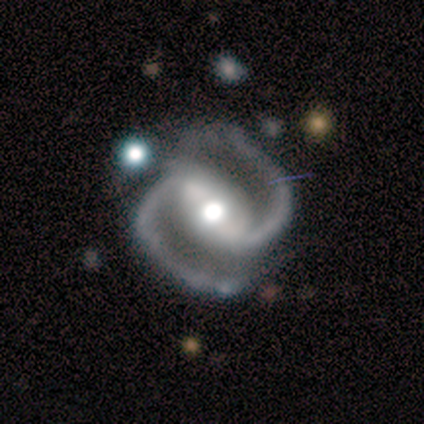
Smooth or featured? featured or disk (80%)
Edge-on disk? no (100%)
Bar? strong (50%, tied with weak)
Spiral arms? yes (100%)
Spiral winding? medium (75%)
Spiral arm count? 2 (100%)
Bulge size? moderate (100%)
Merging? none (75%)